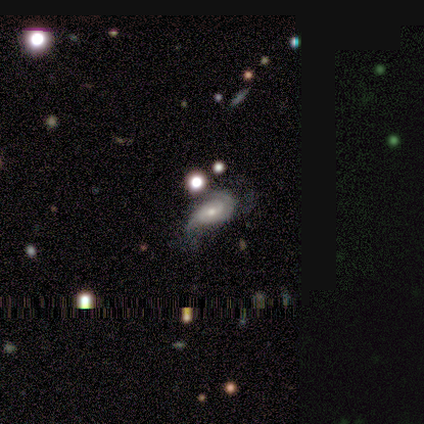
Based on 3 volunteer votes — A featured or disk galaxy (67%) with no bar (100%), 2 (100%) tight (100%) spiral arms (50%, tied with no) and a large central bulge (50%, tied with none). Merging: minor disturbance (100%).